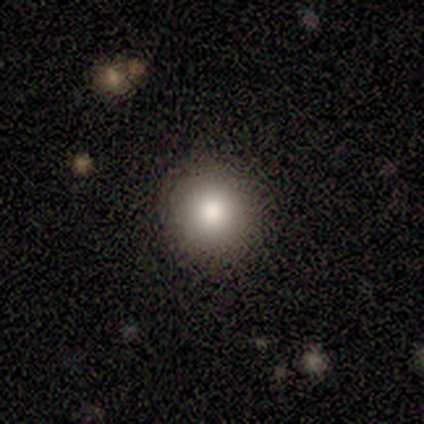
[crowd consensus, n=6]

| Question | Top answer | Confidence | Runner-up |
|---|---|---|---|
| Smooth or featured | smooth | 83% | featured or disk (17%) |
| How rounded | round | 100% | — |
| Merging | none | 100% | — |